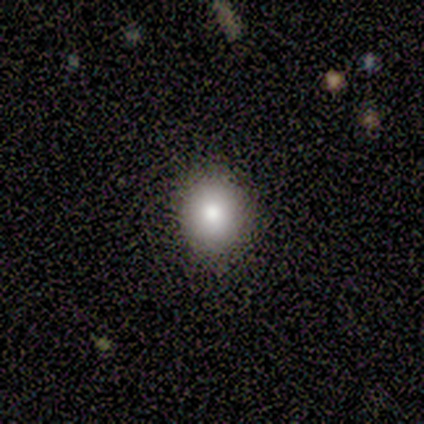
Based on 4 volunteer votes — smooth_or_featured: star or artifact (p=0.50) [alt: smooth p=0.25]